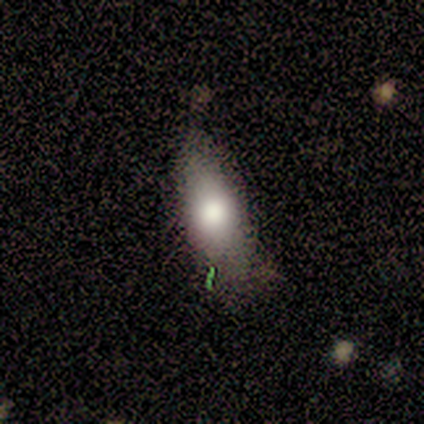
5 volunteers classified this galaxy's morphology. A smooth galaxy with no disk features (60%) that is in between round and cigar-shaped (100%). Merging: none (100%).